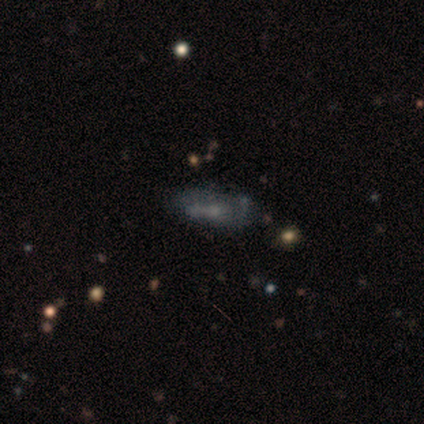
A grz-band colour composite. It shows a smooth galaxy with no disk features (60%) that is in between round and cigar-shaped (67%). Merging: none (56%).